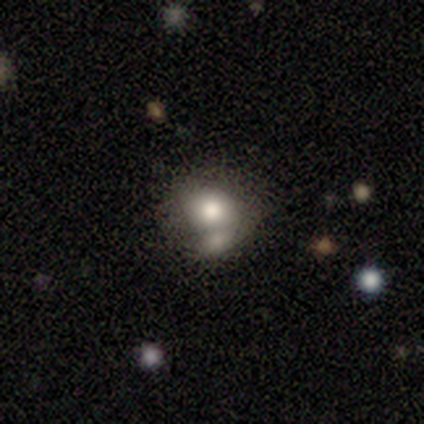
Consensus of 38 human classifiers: A smooth galaxy with no disk features (71%) that is round (63%).

Vote fractions:
- Smooth or featured? smooth: 71% / star or artifact: 18% / featured or disk: 11%
- How rounded? round: 63% / in between: 37% / cigar-shaped: 0%
- Merging? merger: 55% / none: 29% / minor disturbance: 13% / major disturbance: 3%